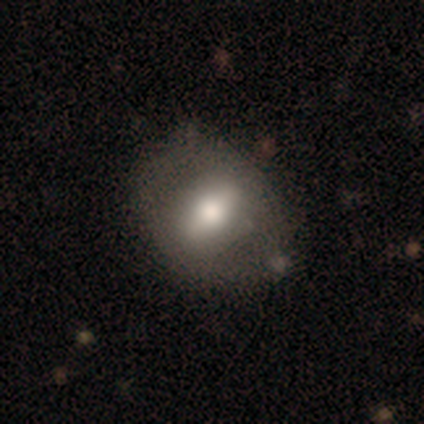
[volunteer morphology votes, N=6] A featured or disk galaxy (67%) with a strong bar (75%), no spiral arms (100%) and a moderate central bulge (100%). Merging: none (100%).